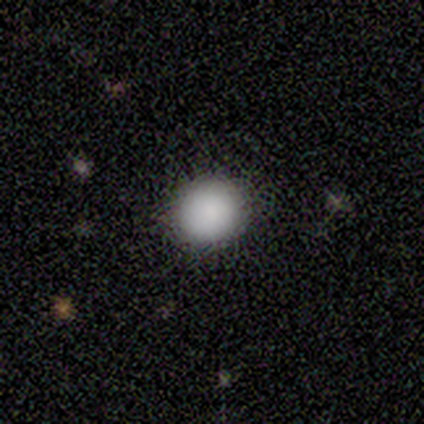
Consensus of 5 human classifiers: Q: Smooth or featured?
A: smooth (80%); runner-up: star or artifact (20%)
Q: How rounded?
A: round (100%)
Q: Merging?
A: none (100%)